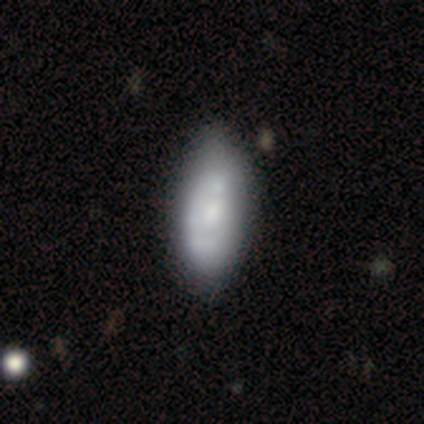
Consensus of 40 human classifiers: Smooth or featured: smooth — 50% (featured or disk — 45%)
How rounded: in between — 75% (cigar-shaped — 25%)
Merging: none — 34% (minor disturbance — 13%)